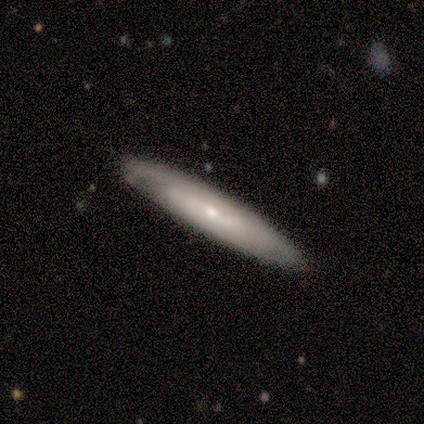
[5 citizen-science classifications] Overall: featured or disk (100%). Edge-on disk: yes (80%). Edge-on bulge: none (50%, tied with rounded). Merging: none (100%).